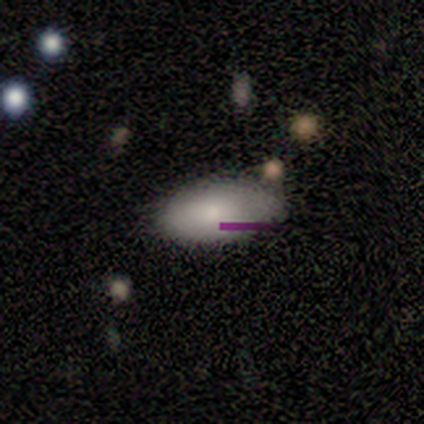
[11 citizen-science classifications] smooth-or-featured: smooth: 64% | featured or disk: 27% | star or artifact: 9%
  how-rounded: in between: 100% | round: 0% | cigar-shaped: 0%
  merging: none: 90% | minor disturbance: 10% | major disturbance: 0% | merger: 0%